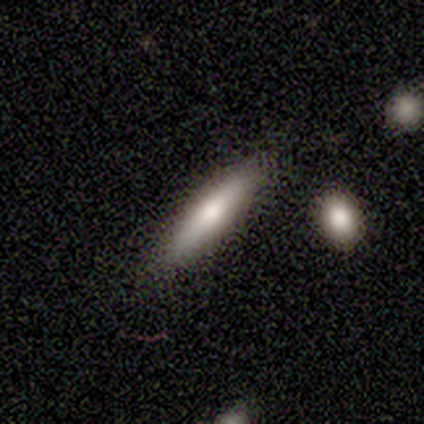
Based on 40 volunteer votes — Smooth or featured: smooth — 68% (featured or disk — 25%)
How rounded: cigar-shaped — 93% (in between — 7%)
Merging: none — 73% (minor disturbance — 22%)